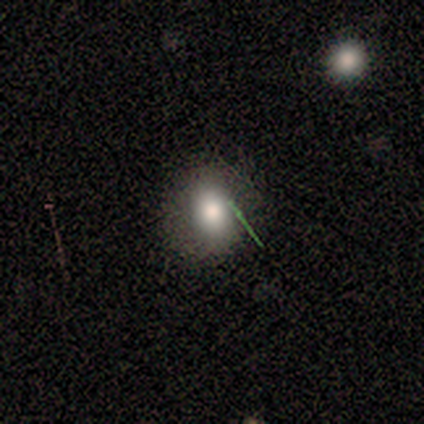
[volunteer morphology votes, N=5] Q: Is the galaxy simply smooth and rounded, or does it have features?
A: smooth — 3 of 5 (60%).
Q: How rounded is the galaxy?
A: in between — 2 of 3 (67%).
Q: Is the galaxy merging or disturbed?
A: none — 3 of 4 (75%).